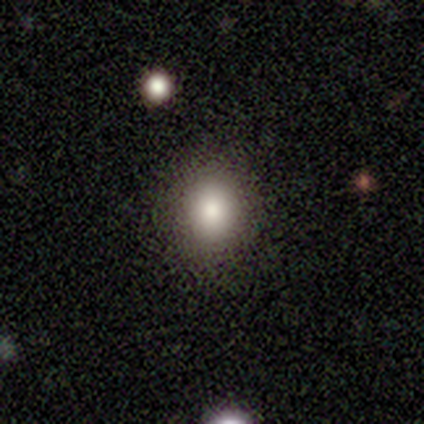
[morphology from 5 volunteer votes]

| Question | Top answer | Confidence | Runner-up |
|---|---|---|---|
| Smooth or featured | smooth | 80% | star or artifact (20%) |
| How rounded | round | 75% | in between (25%) |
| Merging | none | 75% | minor disturbance (25%) |